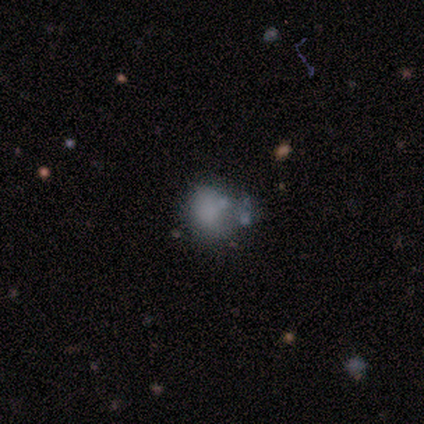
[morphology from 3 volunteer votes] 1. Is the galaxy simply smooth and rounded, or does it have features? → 67% featured or disk, 33% star or artifact, 0% smooth.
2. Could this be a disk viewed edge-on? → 100% no, 0% yes.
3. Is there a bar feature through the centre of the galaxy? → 100% no, 0% strong, 0% weak.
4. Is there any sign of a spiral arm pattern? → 100% no, 0% yes.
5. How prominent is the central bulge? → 100% none, 0% dominant, 0% large, 0% moderate, 0% small.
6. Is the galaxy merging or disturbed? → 50% none (tied), 50% minor disturbance (tied), 0% major disturbance, 0% merger.